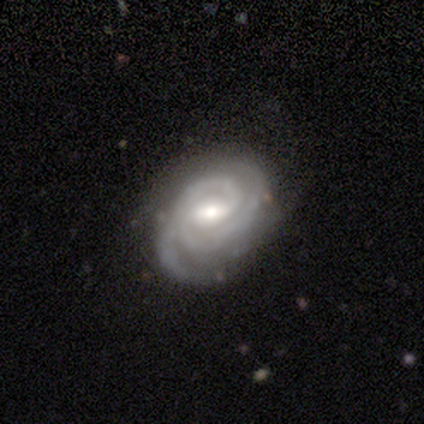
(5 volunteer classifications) smooth_or_featured: featured or disk (p=0.60) [alt: smooth p=0.40]
disk_edge_on: no (p=1.00)
bar: weak (p=0.67) [alt: strong p=0.33]
has_spiral_arms: yes (p=1.00)
spiral_winding: tight (p=0.67) [alt: medium p=0.33]
spiral_arm_count: 2 (p=1.00)
bulge_size: moderate (p=0.67) [alt: small p=0.33]
merging: none (p=0.80) [alt: minor disturbance p=0.20]